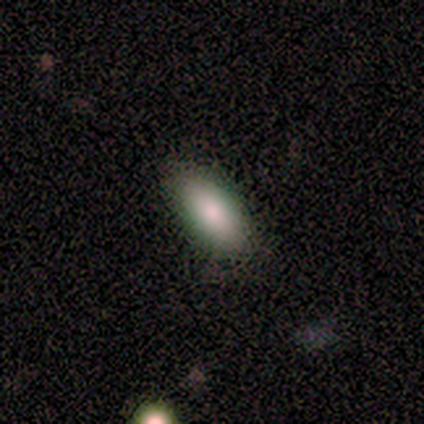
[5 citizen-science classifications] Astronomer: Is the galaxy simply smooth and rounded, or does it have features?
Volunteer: smooth — 100%.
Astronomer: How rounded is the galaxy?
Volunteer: in between — 80%.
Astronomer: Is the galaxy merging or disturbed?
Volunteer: none — 100%.